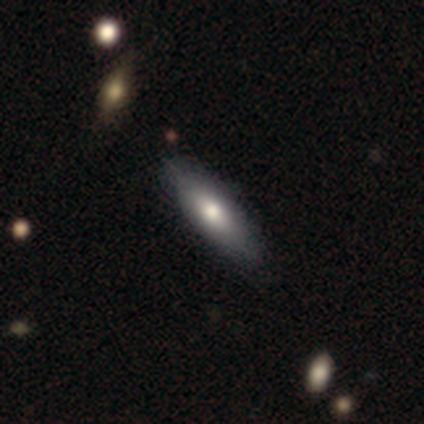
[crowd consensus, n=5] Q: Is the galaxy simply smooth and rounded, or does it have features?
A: smooth — 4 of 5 (80%).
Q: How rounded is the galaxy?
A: cigar-shaped — 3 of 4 (75%).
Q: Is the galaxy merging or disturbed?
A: none — 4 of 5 (80%).